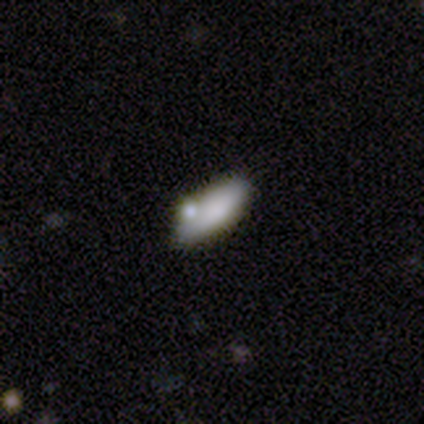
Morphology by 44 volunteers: Q: Smooth or featured?
A: smooth (75%); runner-up: featured or disk (16%)
Q: How rounded?
A: in between (64%); runner-up: cigar-shaped (36%)
Q: Merging?
A: none (65%); runner-up: merger (22%)